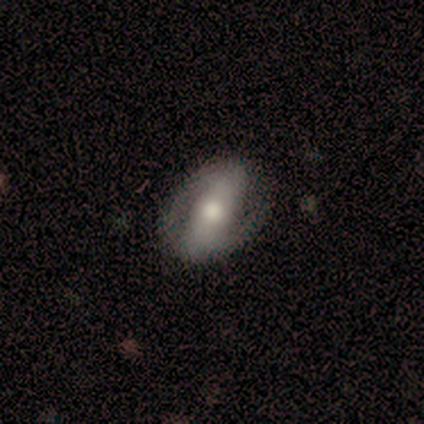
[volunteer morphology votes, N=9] This appears to be a featured or disk galaxy (44%) with a strong bar (50%, tied with no), 2 (100%) tight (33%, tied with medium and loose) spiral arms (75%) and a small central bulge (50%). Merging: none (57%).